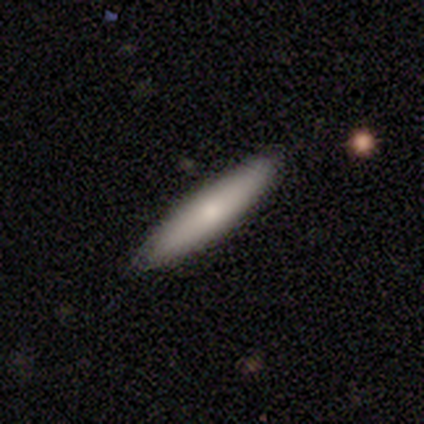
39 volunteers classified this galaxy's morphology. Q: Smooth or featured?
A: smooth (82%); runner-up: featured or disk (15%)
Q: How rounded?
A: cigar-shaped (88%); runner-up: in between (12%)
Q: Merging?
A: none (89%); runner-up: minor disturbance (8%)